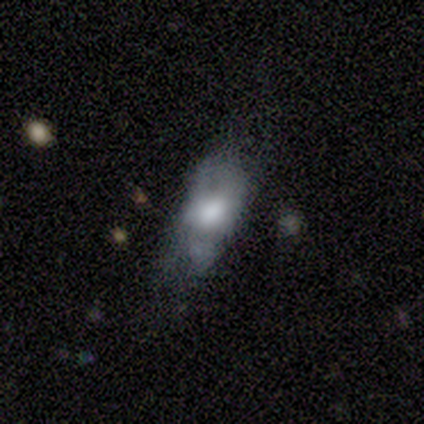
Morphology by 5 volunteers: Smooth or featured?
  - smooth: 80% *
  - featured or disk: 20%
  - star or artifact: 0%
How rounded?
  - in between: 100% *
  - round: 0%
  - cigar-shaped: 0%
Merging?
  - none: 40% * (tied)
  - minor disturbance: 40% * (tied)
  - major disturbance: 20%
  - merger: 0%